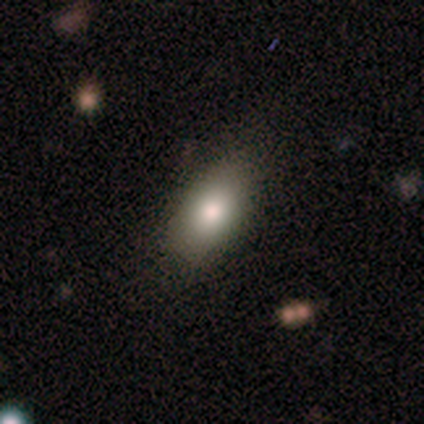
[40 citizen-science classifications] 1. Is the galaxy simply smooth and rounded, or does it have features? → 75% smooth, 22% featured or disk, 2% star or artifact.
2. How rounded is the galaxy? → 93% in between, 7% round, 0% cigar-shaped.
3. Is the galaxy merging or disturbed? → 59% none, 15% minor disturbance, 3% merger, 0% major disturbance.